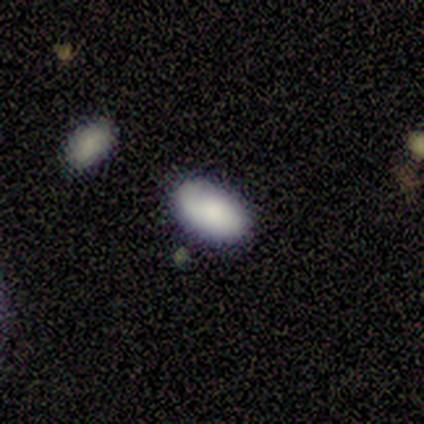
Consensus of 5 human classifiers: This appears to be a smooth galaxy with no disk features (100%) that is in between round and cigar-shaped (80%). Merging: none (80%).